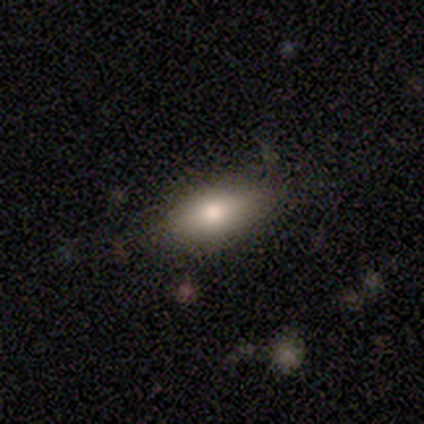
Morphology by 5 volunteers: A smooth galaxy with no disk features (100%) that is in between round and cigar-shaped (100%). Merging: none (100%).